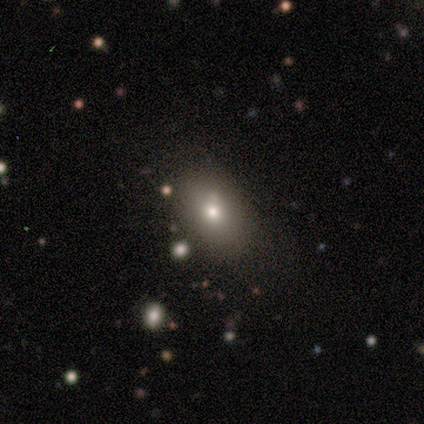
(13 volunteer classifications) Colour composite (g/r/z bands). It shows a smooth galaxy with no disk features (62%) that is in between round and cigar-shaped (62%). Merging: none (55%).